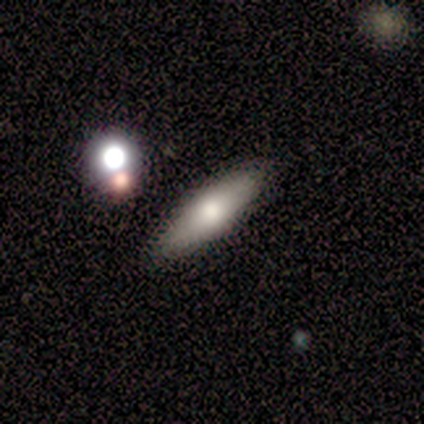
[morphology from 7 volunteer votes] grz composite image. It shows a featured or disk galaxy (57%) viewed edge-on (100%) with a rounded central bulge (100%). Merging: none (100%).